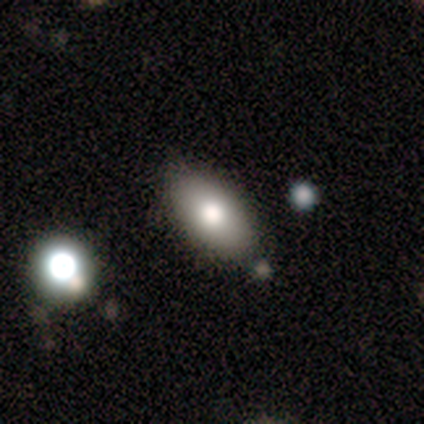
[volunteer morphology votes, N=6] This is possibly a smooth galaxy (50%). How rounded: clearly in between (100%). Merging: likely none (60%).